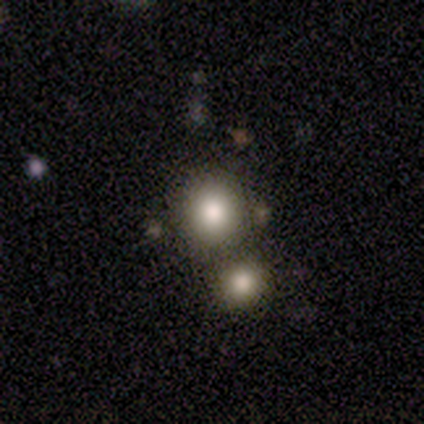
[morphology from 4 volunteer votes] Overall: smooth (75%). How rounded: round (100%). Merging: minor disturbance (67%; none 33%).